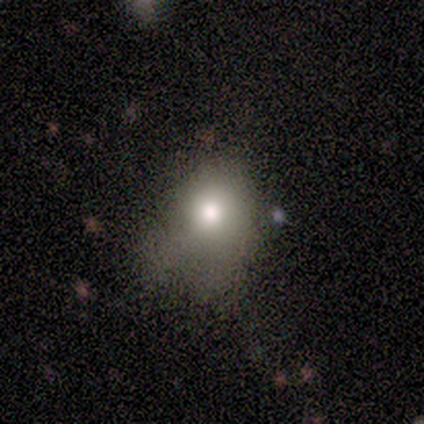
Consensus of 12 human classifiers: Volunteers were most divided on "smooth or featured": smooth: 42%, featured or disk: 33%, star or artifact: 25%. More confident: how rounded — in between (80%); merging — minor disturbance (56%).